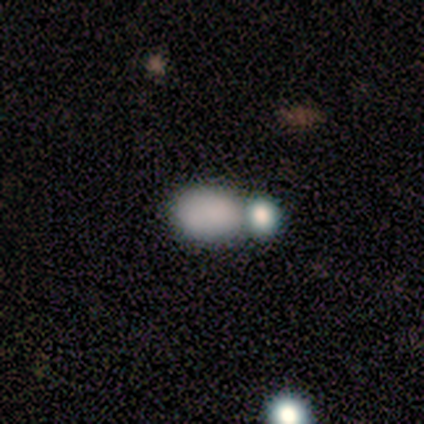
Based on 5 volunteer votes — smooth_or_featured: smooth (p=0.80) [alt: featured or disk p=0.20]
how_rounded: in between (p=1.00)
merging: merger (p=0.60) [alt: none p=0.20]